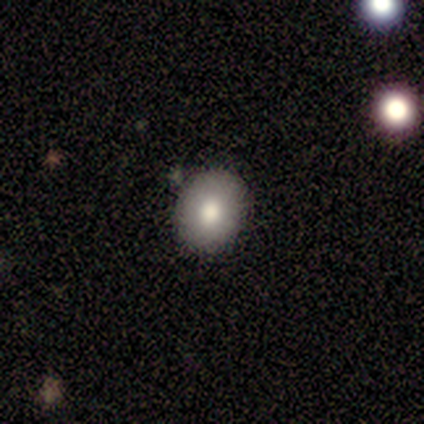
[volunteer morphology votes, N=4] A smooth galaxy with no disk features (100%) that is in between round and cigar-shaped (75%). Merging: none (100%).